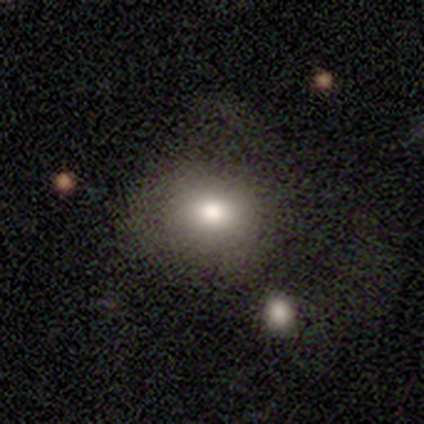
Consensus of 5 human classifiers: smooth 60%, featured or disk 40%, star or artifact 0%. Down the decision tree: how rounded — round (67%); merging — none (60%).